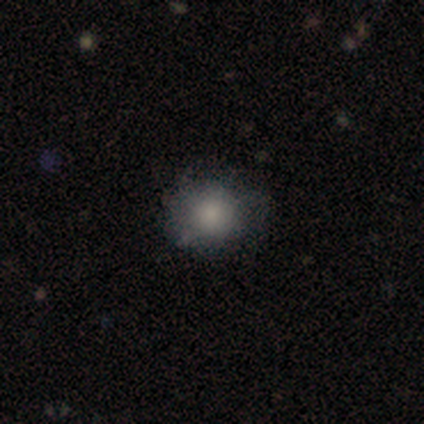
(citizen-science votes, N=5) A smooth galaxy with no disk features (100%) that is round (60%). Merging: none (60%).